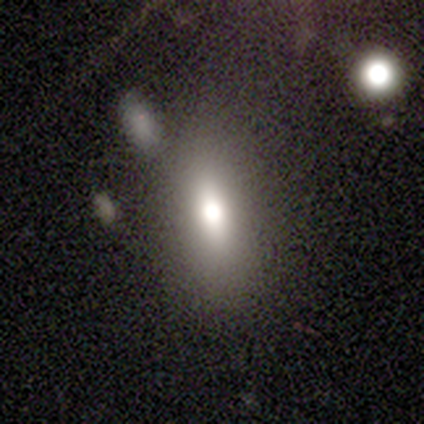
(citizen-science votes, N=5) Q: Smooth or featured?
A: smooth (80%); runner-up: featured or disk (20%)
Q: How rounded?
A: in between (75%); runner-up: cigar-shaped (25%)
Q: Merging?
A: none (80%); runner-up: minor disturbance (20%)